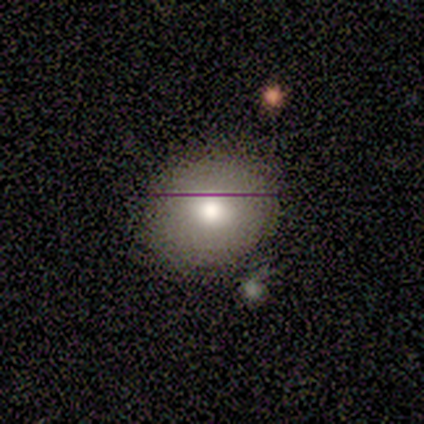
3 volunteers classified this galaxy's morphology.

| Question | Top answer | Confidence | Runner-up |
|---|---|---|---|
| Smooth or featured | smooth | 100% | — |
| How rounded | round | 67% | in between (33%) |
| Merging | none | 67% | minor disturbance (33%) |